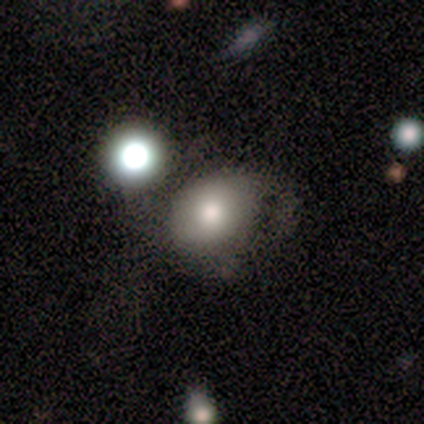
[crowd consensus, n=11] A smooth galaxy with no disk features (64%) that is in between round and cigar-shaped (86%).

Vote fractions:
- Smooth or featured? smooth: 64% / featured or disk: 18% / star or artifact: 18%
- How rounded? in between: 86% / round: 14% / cigar-shaped: 0%
- Merging? minor disturbance: 56% / major disturbance: 22% / none: 11% / merger: 11%